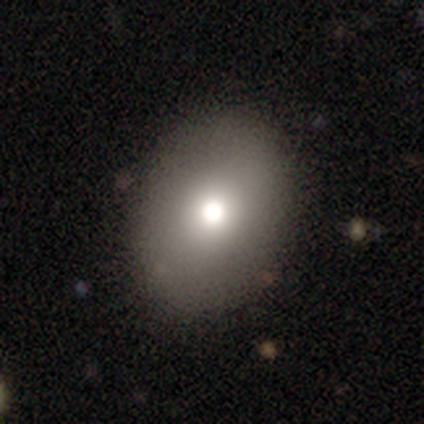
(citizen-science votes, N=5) smooth-or-featured: smooth: 100% | featured or disk: 0% | star or artifact: 0%
  how-rounded: in between: 60% | round: 40% | cigar-shaped: 0%
  merging: none: 80% | minor disturbance: 20% | major disturbance: 0% | merger: 0%